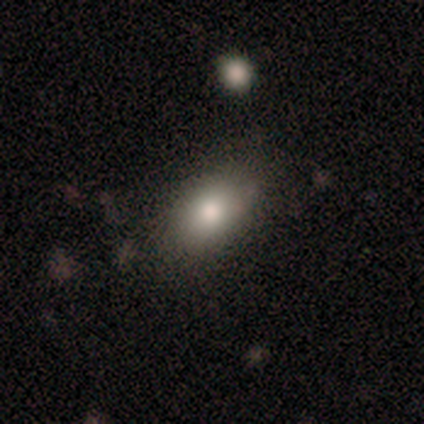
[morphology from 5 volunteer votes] type=smooth (100%); roundness=in between (60%); merging=none (100%).